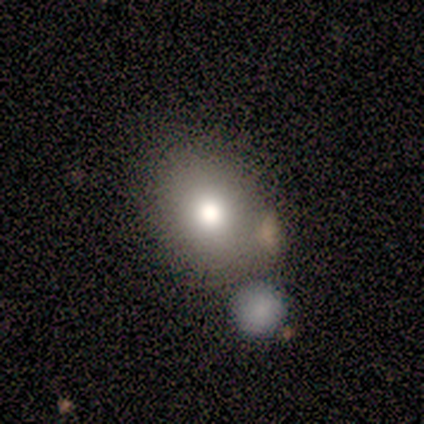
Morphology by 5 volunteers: This is clearly a smooth galaxy (100%). How rounded: clearly in between (80%). Merging: likely minor disturbance (60%).